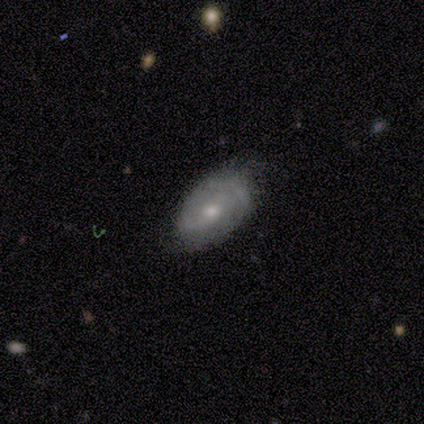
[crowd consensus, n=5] Morphology: type=smooth (80%); roundness=in between (75%); merging=none (60%).